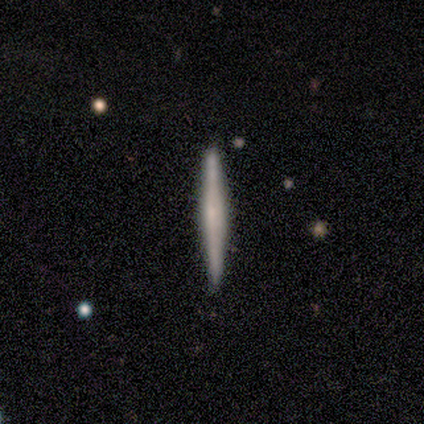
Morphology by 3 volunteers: Smooth or featured?
  - featured or disk: 67% *
  - star or artifact: 33%
  - smooth: 0%
Edge-on disk?
  - yes: 100% *
  - no: 0%
Edge-on bulge?
  - none: 50% * (tied)
  - rounded: 50% * (tied)
  - boxy: 0%
Merging?
  - minor disturbance: 50% * (tied)
  - merger: 50% * (tied)
  - none: 0%
  - major disturbance: 0%